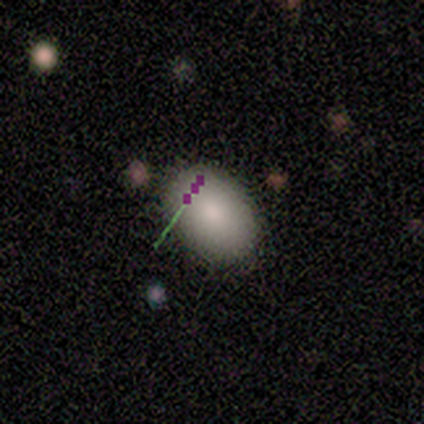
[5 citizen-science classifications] A smooth galaxy with no disk features (80%) that is round (50%, tied with in between).

Vote fractions:
- Smooth or featured? smooth: 80% / star or artifact: 20% / featured or disk: 0%
- How rounded? round: 50% (tied) / in between: 50% (tied) / cigar-shaped: 0%
- Merging? none: 100% / minor disturbance: 0% / major disturbance: 0% / merger: 0%